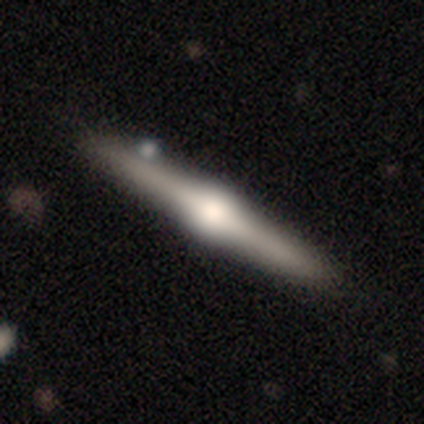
Smooth or featured?
  - featured or disk: 75% *
  - smooth: 25%
  - star or artifact: 0%
Edge-on disk?
  - yes: 100% *
  - no: 0%
Edge-on bulge?
  - rounded: 100% *
  - boxy: 0%
  - none: 0%
Merging?
  - none: 100% *
  - minor disturbance: 0%
  - major disturbance: 0%
  - merger: 0%